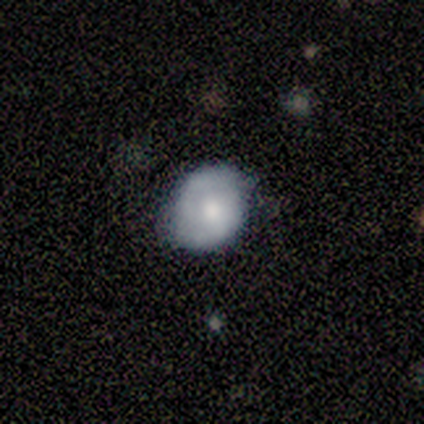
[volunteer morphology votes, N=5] Smooth or featured? featured or disk (60%)
Edge-on disk? no (100%)
Bar? no (67%)
Spiral arms? yes (67%)
Spiral winding? tight (50%, tied with medium)
Spiral arm count? 2 (100%)
Bulge size? moderate (67%)
Merging? minor disturbance (60%)